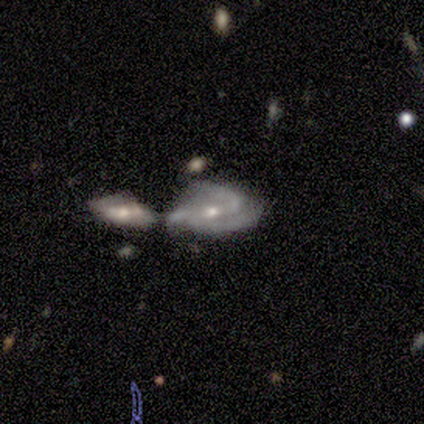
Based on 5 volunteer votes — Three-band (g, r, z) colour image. It shows a featured or disk galaxy (80%) with a weak bar (50%, tied with no), 2 (50%) loose (75%) spiral arms (100%) and a small central bulge (75%). Merging: merger (60%).